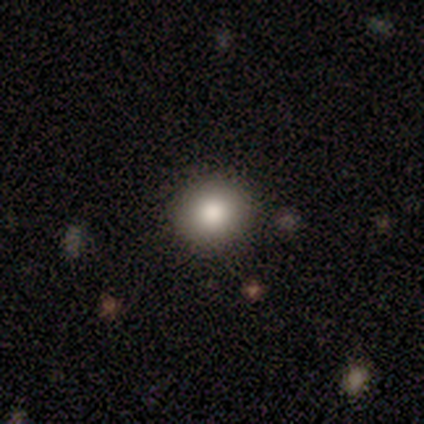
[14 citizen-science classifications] Smooth or featured: smooth — 79% (star or artifact — 21%)
How rounded: round — 82% (in between — 18%)
Merging: none — 91% (minor disturbance — 9%)